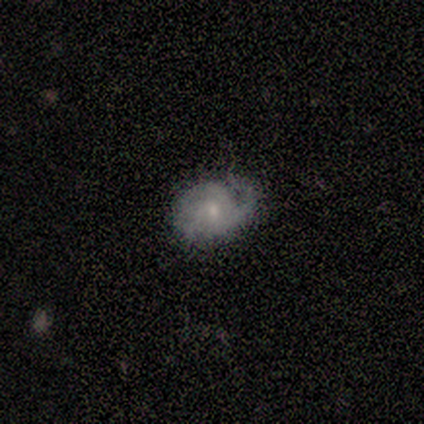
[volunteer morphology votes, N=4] Overall: featured or disk (100%). Edge-on disk: no (100%). Bar: no (100%). Spiral arms: yes (100%). Spiral arm count: can't tell (50%; 2 25%). Spiral winding: tight (50%, tied with loose). Bulge size: small (50%; moderate 25%). Merging: none (50%, tied with minor disturbance).